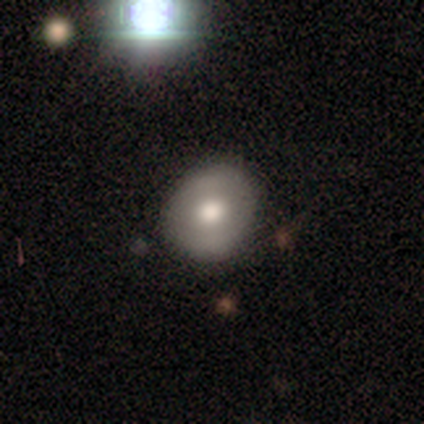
This appears to be a smooth galaxy with no disk features (80%) that is round (75%). Merging: none (60%).